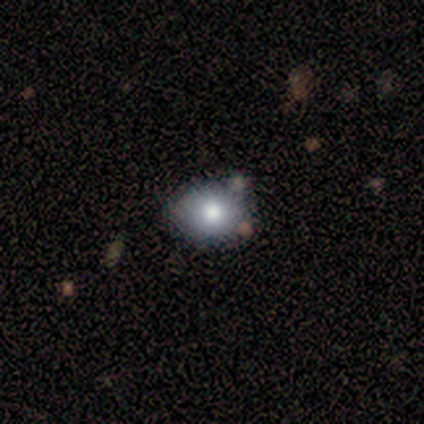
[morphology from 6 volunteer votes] smooth 67%, star or artifact 33%, featured or disk 0%. Down the decision tree: how rounded — round (50%, tied with in between); merging — none (100%).